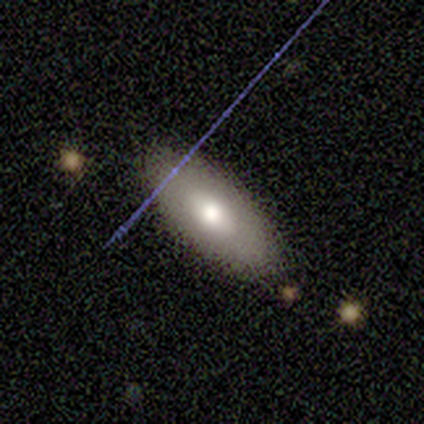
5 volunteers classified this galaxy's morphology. Smooth or featured?
  - smooth: 60% *
  - featured or disk: 20%
  - star or artifact: 20%
How rounded?
  - in between: 67% *
  - cigar-shaped: 33%
  - round: 0%
Merging?
  - none: 100% *
  - minor disturbance: 0%
  - major disturbance: 0%
  - merger: 0%